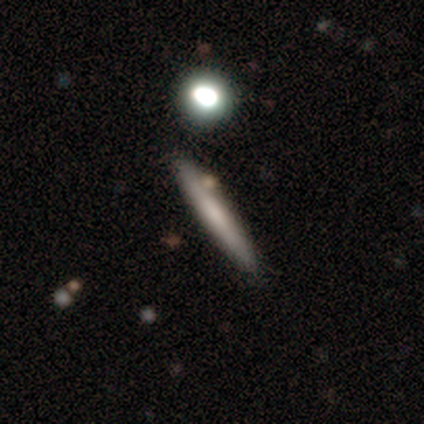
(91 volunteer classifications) Smooth or featured? smooth (57%)
How rounded? cigar-shaped (92%)
Merging? none (84%)